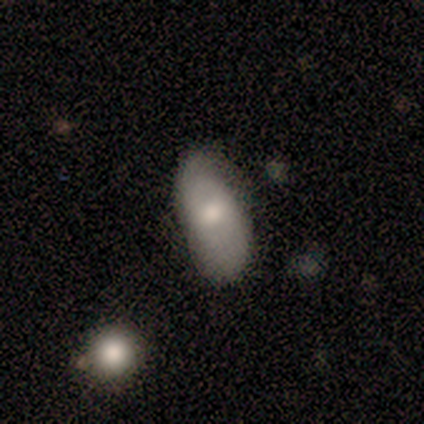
Smooth or featured? 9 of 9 (100%) said smooth. How rounded? 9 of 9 (100%) said in between. Merging? 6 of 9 (67%) said none.